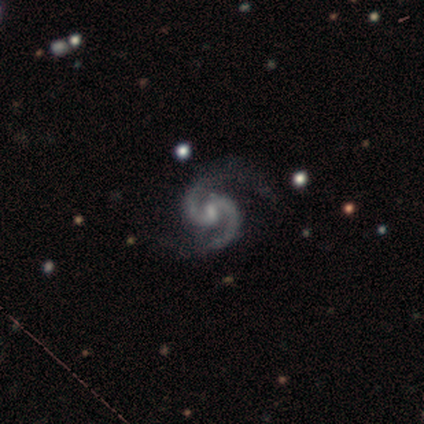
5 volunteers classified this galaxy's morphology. Smooth or featured? 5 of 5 (100%) said featured or disk. Edge-on disk? 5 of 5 (100%) said no. Bar? 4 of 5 (80%) said weak. Spiral arms? 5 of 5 (100%) said yes. Spiral winding? 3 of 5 (60%) said medium. Spiral arm count? 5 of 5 (100%) said 2. Bulge size? 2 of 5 (40%, tied with small) said moderate. Merging? 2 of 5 (40%, tied with minor disturbance) said none.